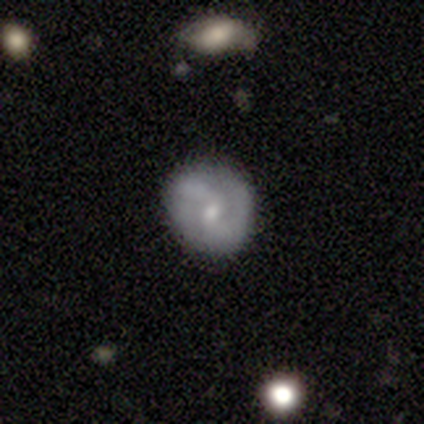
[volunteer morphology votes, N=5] Smooth or featured: smooth — 60% (featured or disk — 40%)
How rounded: round — 100%
Merging: none — 80% (major disturbance — 20%)